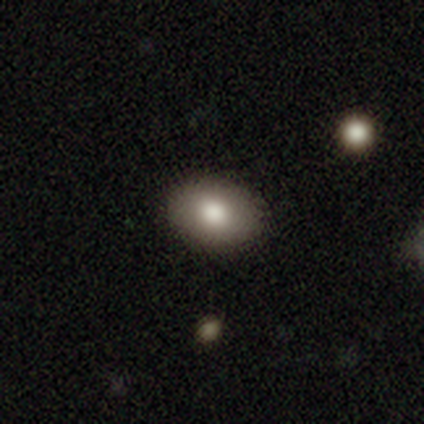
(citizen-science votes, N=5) smooth_or_featured: smooth (p=0.80) [alt: featured or disk p=0.20]
how_rounded: in between (p=1.00)
merging: none (p=1.00)